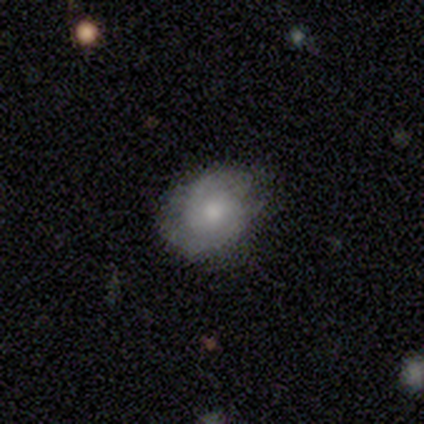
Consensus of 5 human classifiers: This appears to be a smooth galaxy with no disk features (60%) that is round (67%). Merging: none (60%).